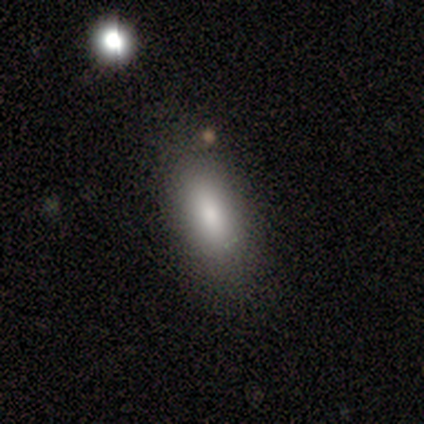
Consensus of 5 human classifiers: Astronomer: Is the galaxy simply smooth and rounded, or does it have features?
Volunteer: smooth — 80%.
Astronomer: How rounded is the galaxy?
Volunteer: in between — 100%.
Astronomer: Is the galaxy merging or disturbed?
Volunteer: none — 60% (runner-up: minor disturbance, 40%).